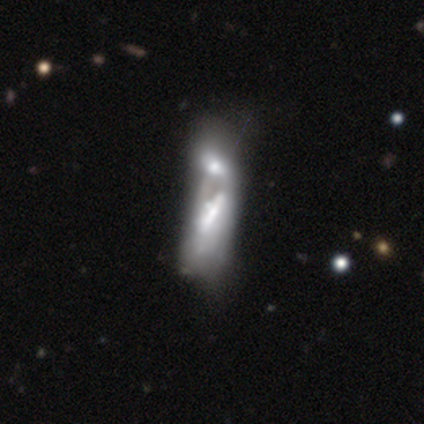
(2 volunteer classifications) This appears to be a smooth galaxy with no disk features (50%, tied with featured or disk) that is cigar-shaped (100%). Merging: merger (100%).